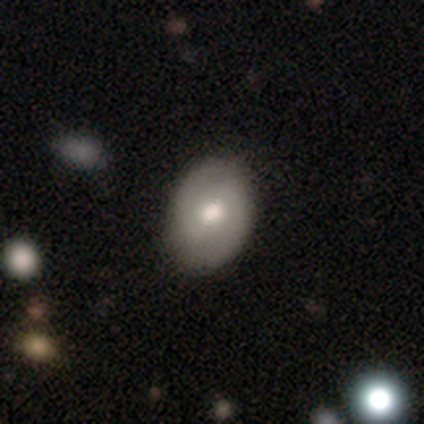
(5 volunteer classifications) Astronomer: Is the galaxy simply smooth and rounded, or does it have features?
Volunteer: smooth — 60%.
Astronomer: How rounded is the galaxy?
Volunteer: in between — 67%.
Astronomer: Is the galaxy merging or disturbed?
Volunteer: none — 100%.